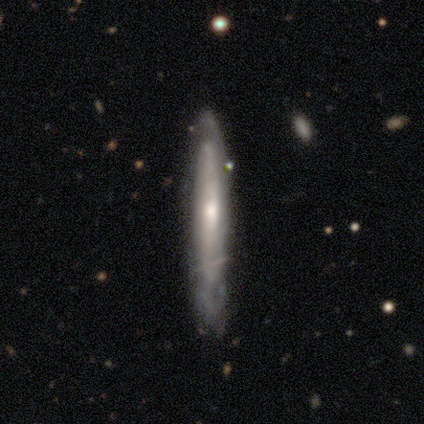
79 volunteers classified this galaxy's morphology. Q: Smooth or featured?
A: featured or disk (66%); runner-up: smooth (32%)
Q: Edge-on disk?
A: yes (85%); runner-up: no (15%)
Q: Edge-on bulge?
A: rounded (52%); runner-up: none (48%)
Q: Merging?
A: none (71%); runner-up: minor disturbance (23%)